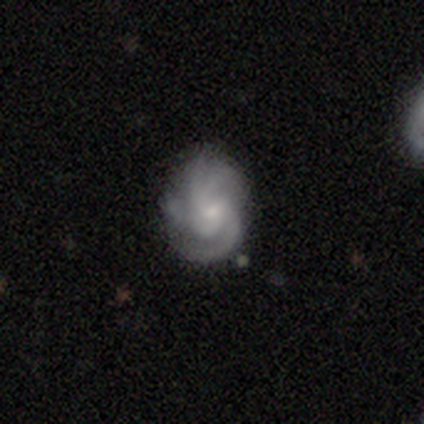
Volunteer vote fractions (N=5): Morphology: type=featured or disk (100%); edge-on=no (100%); bar=weak (60%); spiral arms=yes (100%); winding=medium (60%); arm count=2 (40%, tied with 3); bulge=small (80%); merging=none (100%).